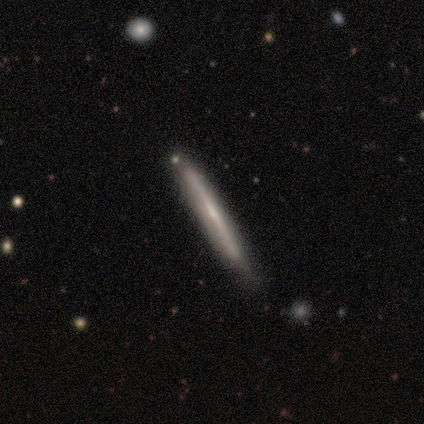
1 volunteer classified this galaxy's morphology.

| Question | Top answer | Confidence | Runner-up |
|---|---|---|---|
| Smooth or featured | featured or disk | 100% | — |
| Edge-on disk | yes | 100% | — |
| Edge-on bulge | rounded | 100% | — |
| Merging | none | 100% | — |